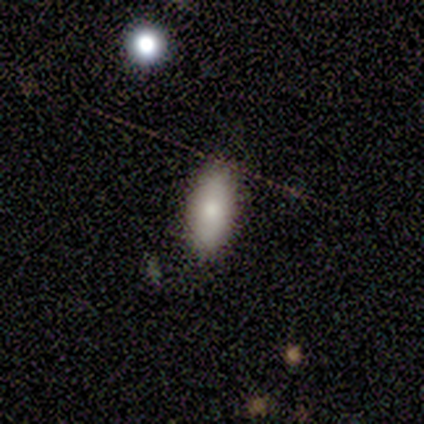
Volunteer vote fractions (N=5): smooth-or-featured: smooth: 100% | featured or disk: 0% | star or artifact: 0%
  how-rounded: in between: 100% | round: 0% | cigar-shaped: 0%
  merging: none: 60% | minor disturbance: 40% | major disturbance: 0% | merger: 0%